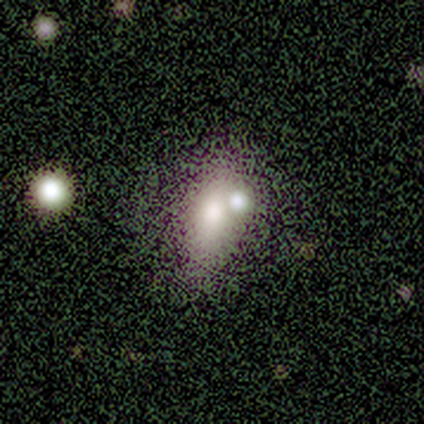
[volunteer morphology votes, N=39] A smooth galaxy with no disk features (72%) that is in between round and cigar-shaped (75%).

Vote fractions:
- Smooth or featured? smooth: 72% / featured or disk: 21% / star or artifact: 8%
- How rounded? in between: 75% / round: 14% / cigar-shaped: 11%
- Merging? merger: 50% / none: 28% / minor disturbance: 11% / major disturbance: 0%